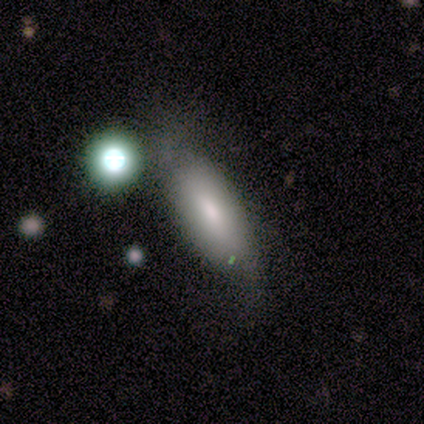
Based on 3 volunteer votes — smooth-or-featured: featured or disk: 67% | smooth: 33% | star or artifact: 0%
  disk-edge-on: no: 100% | yes: 0%
    bar: weak: 50% (tied) | no: 50% (tied) | strong: 0%
    has-spiral-arms: yes: 100% | no: 0%
      spiral-winding: loose: 100% | tight: 0% | medium: 0%
      spiral-arm-count: 2: 100% | 1: 0% | 3: 0% | 4: 0% | more than 4: 0% | can't tell: 0%
    bulge-size: moderate: 100% | dominant: 0% | large: 0% | small: 0% | none: 0%
  merging: minor disturbance: 67% | none: 33% | major disturbance: 0% | merger: 0%